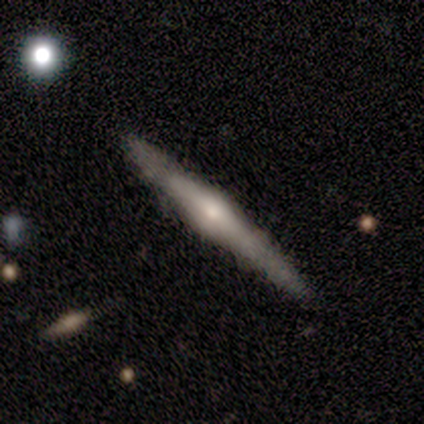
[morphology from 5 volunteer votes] type=featured or disk (80%); edge-on=yes (100%); edge-on bulge=rounded (100%); merging=none (60%).